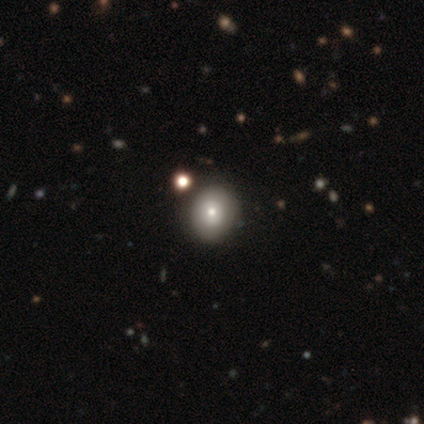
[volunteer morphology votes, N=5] Smooth or featured? smooth (100%)
How rounded? in between (60%)
Merging? minor disturbance (60%)